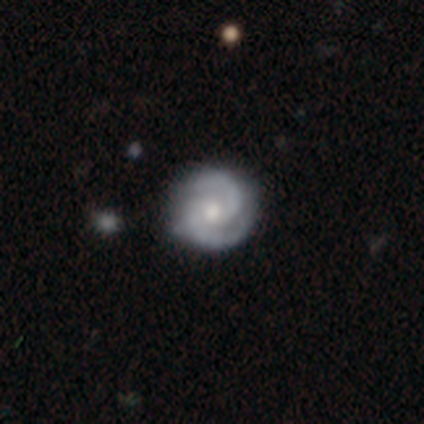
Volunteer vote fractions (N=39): A featured or disk galaxy (79%) with no bar (71%), 2 (94%) medium (55%) spiral arms (100%) and a small central bulge (55%). Merging: none (89%).